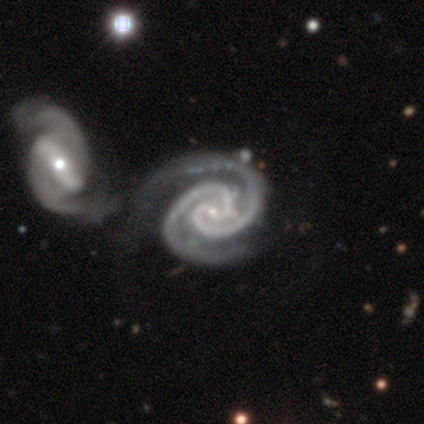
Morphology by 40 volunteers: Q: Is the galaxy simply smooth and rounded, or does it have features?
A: featured or disk — 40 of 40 (100%).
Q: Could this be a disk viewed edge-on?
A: no — 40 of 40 (100%).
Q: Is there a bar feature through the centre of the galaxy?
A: no — 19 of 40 (48%).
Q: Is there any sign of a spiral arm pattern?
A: yes — 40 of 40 (100%).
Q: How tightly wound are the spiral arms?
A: tight — 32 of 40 (80%).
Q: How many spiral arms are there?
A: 2 — 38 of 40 (95%).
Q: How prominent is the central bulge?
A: small — 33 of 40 (82%).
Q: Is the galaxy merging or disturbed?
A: merger — 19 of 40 (48%).